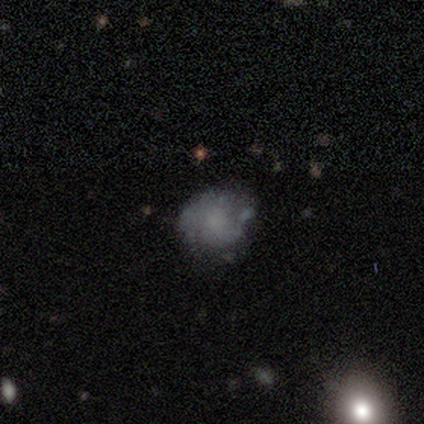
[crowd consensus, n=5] A featured or disk galaxy (60%) with no bar (100%), medium (67%) spiral arms (100%) and a small central bulge (100%). Merging: none (80%).